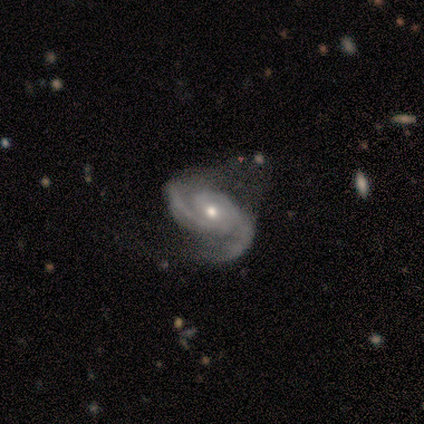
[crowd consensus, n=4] Morphology: type=featured or disk (100%); edge-on=no (100%); bar=no (75%); spiral arms=yes (100%); winding=tight (75%); arm count=2 (100%); bulge=moderate (50%, tied with small); merging=none (50%, tied with minor disturbance).